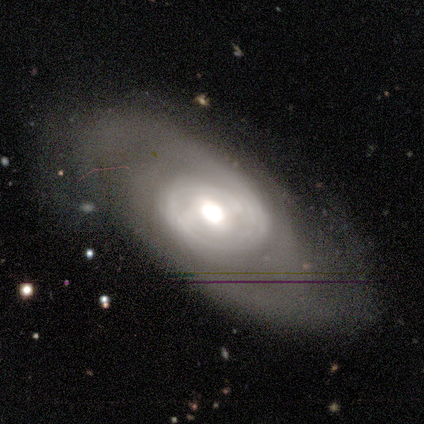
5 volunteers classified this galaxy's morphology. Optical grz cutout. It shows a featured or disk galaxy (100%) with no bar (60%), tight (100%) spiral arms (60%) and a moderate central bulge (100%). Merging: none (60%).